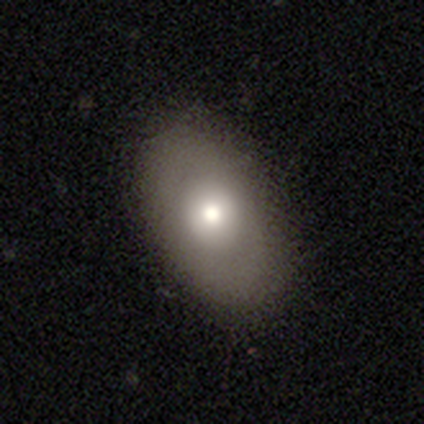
Smooth or featured? 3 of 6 (50%) said featured or disk. Edge-on disk? 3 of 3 (100%) said no. Bar? 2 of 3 (67%) said no. Spiral arms? 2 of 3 (67%) said no. Bulge size? 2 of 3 (67%) said moderate. Merging? 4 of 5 (80%) said none.